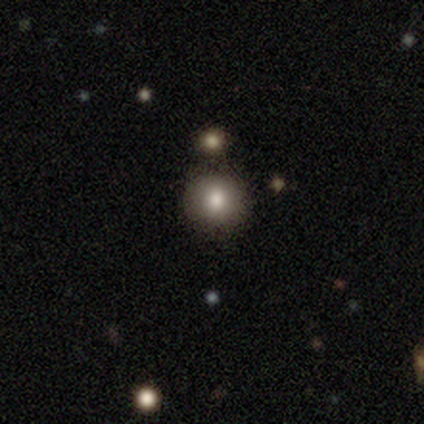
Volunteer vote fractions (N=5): Smooth or featured? smooth (60%)
How rounded? round (100%)
Merging? none (100%)